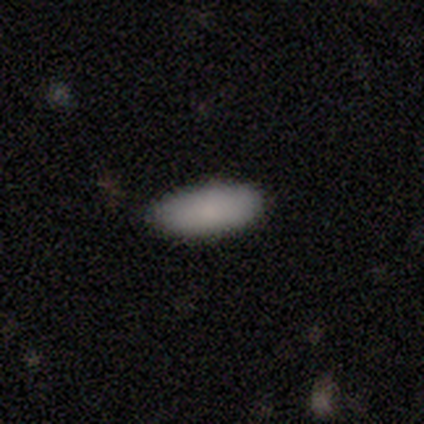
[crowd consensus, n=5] Morphology: type=smooth (100%); roundness=in between (80%); merging=minor disturbance (60%).